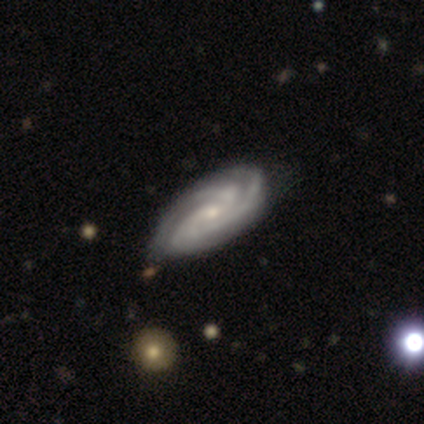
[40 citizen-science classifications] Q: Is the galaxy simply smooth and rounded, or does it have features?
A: featured or disk — 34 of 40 (85%).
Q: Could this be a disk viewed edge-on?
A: no — 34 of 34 (100%).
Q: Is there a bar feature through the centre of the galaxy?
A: no — 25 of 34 (74%).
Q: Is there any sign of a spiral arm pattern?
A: yes — 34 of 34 (100%).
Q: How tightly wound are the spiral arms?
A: tight — 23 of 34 (68%).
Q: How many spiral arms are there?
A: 3 — 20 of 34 (59%).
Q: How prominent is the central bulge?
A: small — 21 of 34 (62%).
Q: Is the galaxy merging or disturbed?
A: none — 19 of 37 (51%).